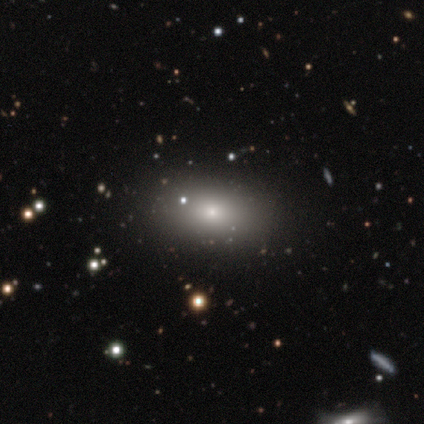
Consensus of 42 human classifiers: This appears to be a smooth galaxy with no disk features (76%) that is in between round and cigar-shaped (91%). Merging: none (82%).